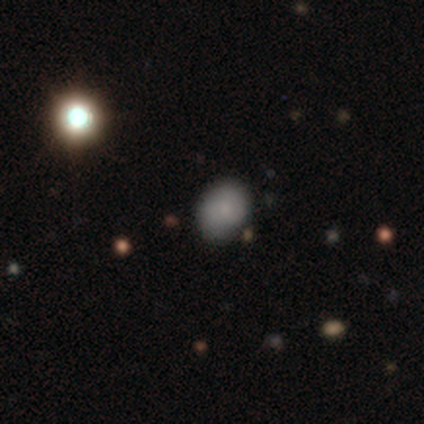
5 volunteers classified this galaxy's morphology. Q: Smooth or featured?
A: smooth (80%); runner-up: star or artifact (20%)
Q: How rounded?
A: round (75%); runner-up: in between (25%)
Q: Merging?
A: none (100%)